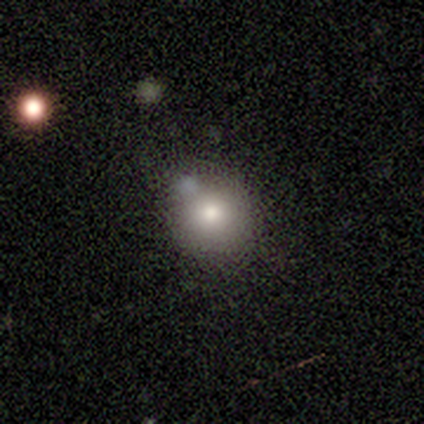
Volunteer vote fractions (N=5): This is clearly a smooth galaxy (80%). How rounded: clearly round (100%). Merging: clearly none (100%).